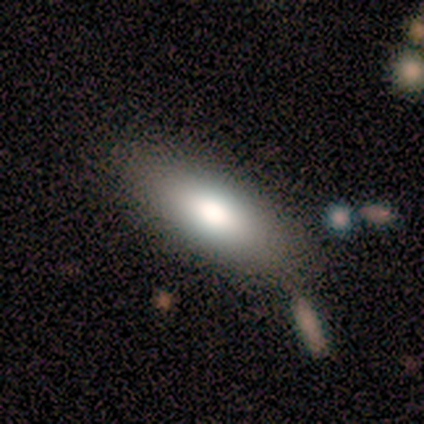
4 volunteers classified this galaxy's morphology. A smooth galaxy with no disk features (75%) that is in between round and cigar-shaped (67%).

Vote fractions:
- Smooth or featured? smooth: 75% / featured or disk: 25% / star or artifact: 0%
- How rounded? in between: 67% / cigar-shaped: 33% / round: 0%
- Merging? none: 75% / merger: 25% / minor disturbance: 0% / major disturbance: 0%